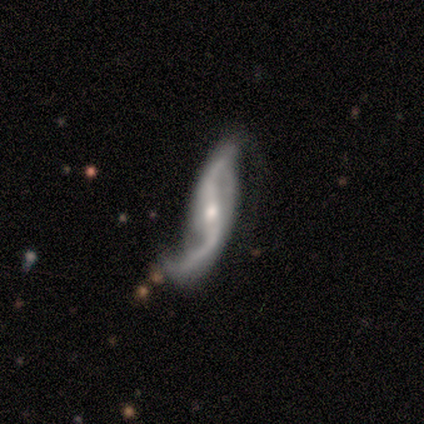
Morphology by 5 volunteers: A featured or disk galaxy (80%) with a weak bar (67%), 2 (100%) loose (100%) spiral arms (100%) and a moderate central bulge (67%). Merging: major disturbance (75%).